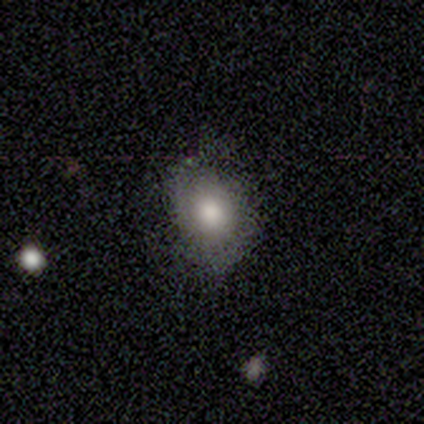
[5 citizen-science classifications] smooth 80%, star or artifact 20%, featured or disk 0%. Down the decision tree: how rounded — in between (75%); merging — none (50%).